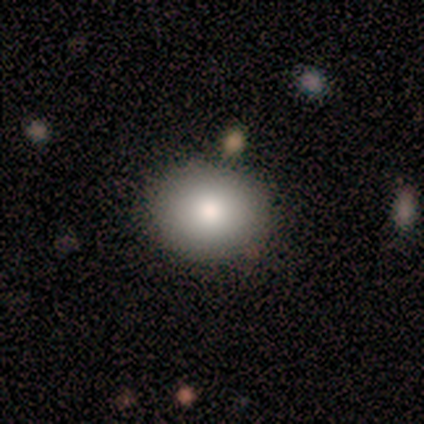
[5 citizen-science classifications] A smooth galaxy with no disk features (100%) that is round (80%). Merging: none (100%).